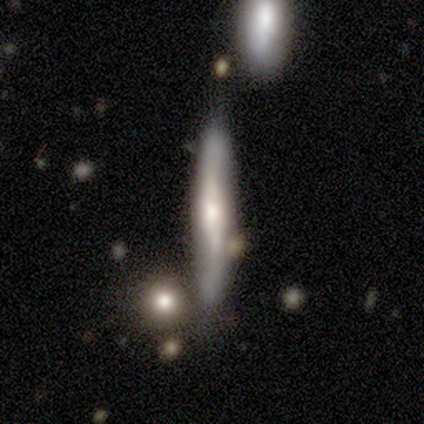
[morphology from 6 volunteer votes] Smooth or featured? featured or disk (67%)
Edge-on disk? yes (100%)
Edge-on bulge? rounded (75%)
Merging? none (83%)